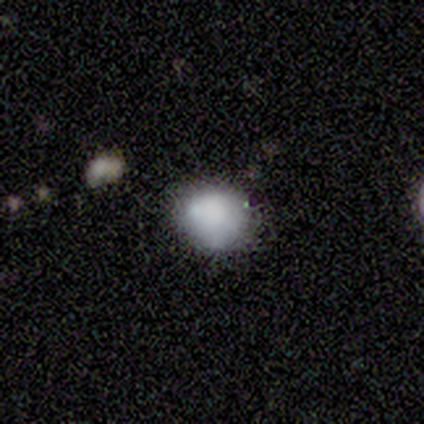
Morphology: type=smooth (75%); roundness=round (67%); merging=none (75%).